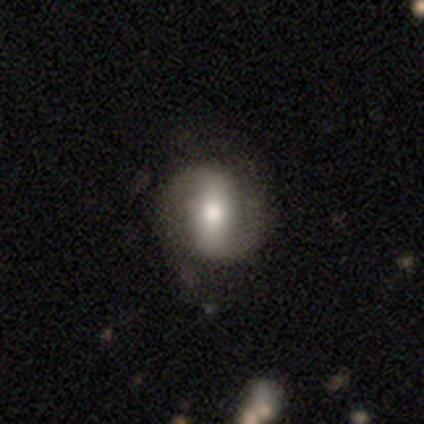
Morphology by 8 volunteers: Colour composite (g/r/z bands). It shows a featured or disk galaxy (50%) with a strong bar (75%), 2 (100%) tight (50%, tied with medium) spiral arms (100%) and a moderate central bulge (75%). Merging: none (71%).